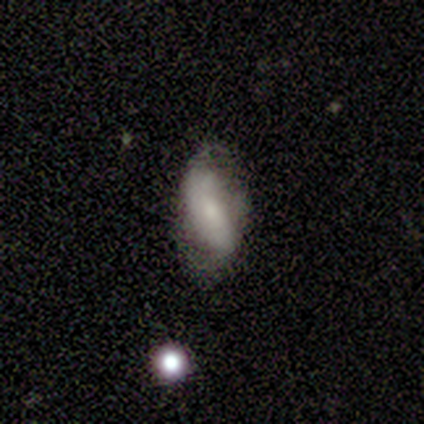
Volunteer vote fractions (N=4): smooth_or_featured: smooth (p=0.50) [tied with: star or artifact p=0.50]
how_rounded: in between (p=0.50) [tied with: cigar-shaped p=0.50]
merging: minor disturbance (p=0.50) [tied with: major disturbance p=0.50]